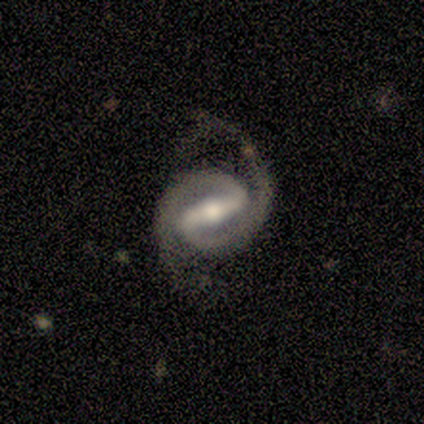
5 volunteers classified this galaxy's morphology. Volunteers were most divided on "edge-on disk": no: 60%, yes: 40%. More confident: smooth or featured — featured or disk (100%); spiral arms — yes (100%); spiral arm count — 2 (100%); bulge size — moderate (100%); bar — strong (67%); spiral winding — medium (67%); merging — none (60%).